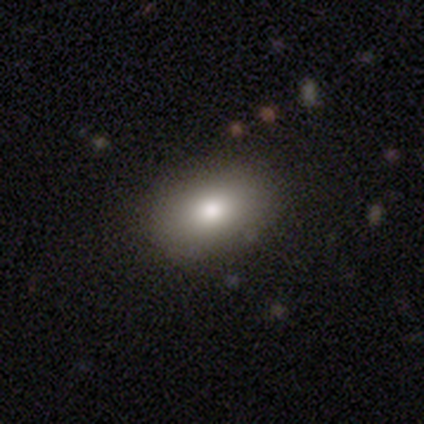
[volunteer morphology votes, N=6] Q: Smooth or featured?
A: smooth (83%); runner-up: featured or disk (17%)
Q: How rounded?
A: in between (80%); runner-up: round (20%)
Q: Merging?
A: none (83%); runner-up: minor disturbance (17%)